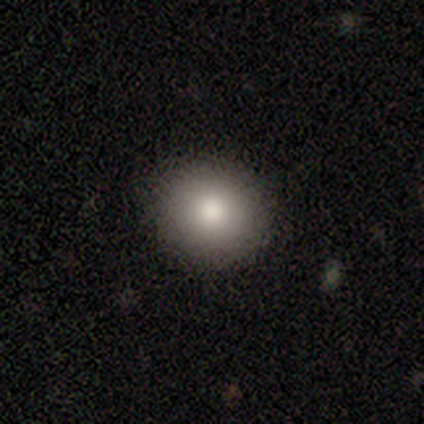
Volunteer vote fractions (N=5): This is clearly a smooth galaxy (80%). How rounded: likely round (75%). Merging: clearly none (100%).